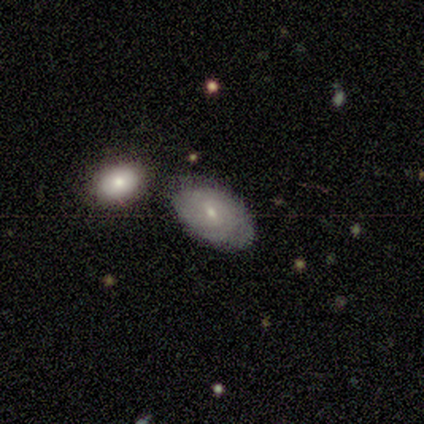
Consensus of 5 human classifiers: Overall: featured or disk (100%). Edge-on disk: no (100%). Bar: weak (80%). Spiral arms: yes (80%). Spiral arm count: can't tell (50%; 2 25%). Spiral winding: tight (50%, tied with medium). Bulge size: small (60%; moderate 40%). Merging: none (80%).